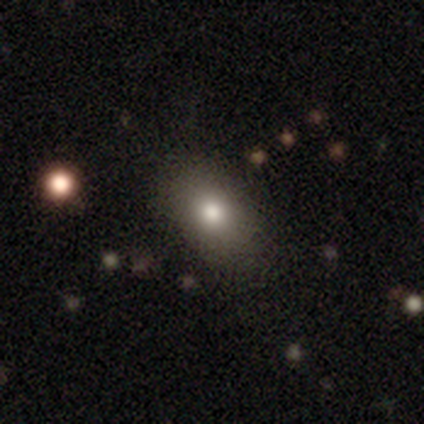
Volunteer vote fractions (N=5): Overall: smooth (100%). How rounded: in between (100%). Merging: none (100%).